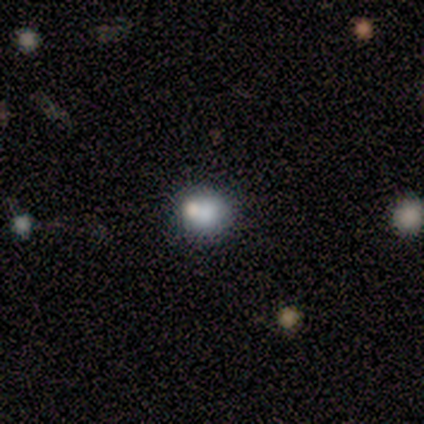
smooth-or-featured: smooth: 100% | featured or disk: 0% | star or artifact: 0%
  how-rounded: round: 100% | in between: 0% | cigar-shaped: 0%
  merging: none: 50% (tied) | merger: 50% (tied) | minor disturbance: 0% | major disturbance: 0%